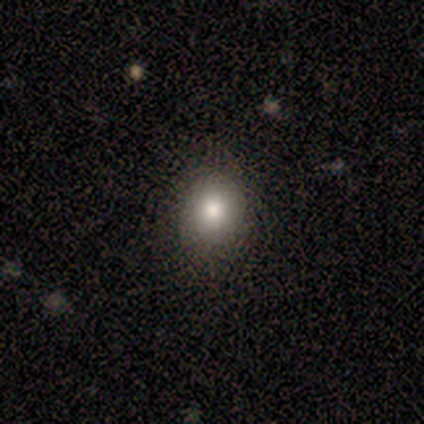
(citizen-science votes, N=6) A smooth galaxy with no disk features (83%) that is round (100%).

Vote fractions:
- Smooth or featured? smooth: 83% / star or artifact: 17% / featured or disk: 0%
- How rounded? round: 100% / in between: 0% / cigar-shaped: 0%
- Merging? none: 80% / minor disturbance: 20% / major disturbance: 0% / merger: 0%